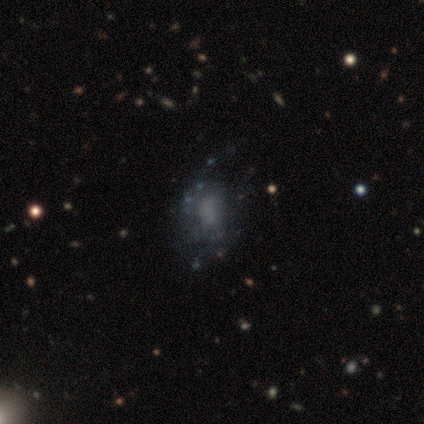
Smooth or featured? featured or disk (60%)
Edge-on disk? no (100%)
Bar? no (67%)
Spiral arms? no (67%)
Bulge size? moderate (67%)
Merging? none (25%, tied with minor disturbance, major disturbance and merger)